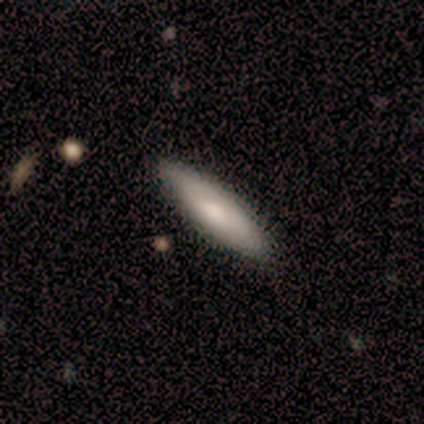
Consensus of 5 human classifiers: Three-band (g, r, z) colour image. It shows a smooth galaxy with no disk features (60%) that is cigar-shaped (100%). Merging: none (80%).